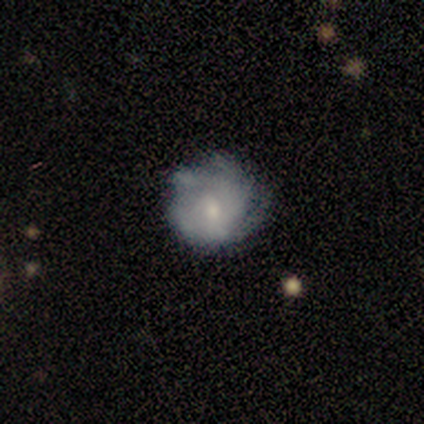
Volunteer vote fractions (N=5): Morphology: type=featured or disk (80%); edge-on=no (100%); bar=no (75%); spiral arms=yes (100%); winding=tight (100%); arm count=3 (50%); bulge=moderate (50%); merging=none (100%).